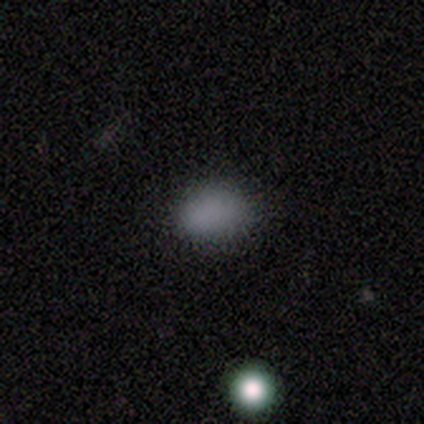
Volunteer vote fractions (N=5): A smooth galaxy with no disk features (80%) that is in between round and cigar-shaped (75%). Merging: none (75%).